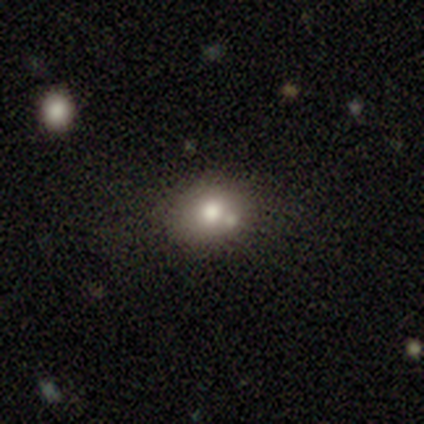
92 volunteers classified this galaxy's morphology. smooth_or_featured: smooth (p=0.71) [alt: star or artifact p=0.15]
how_rounded: round (p=0.57) [alt: in between p=0.43]
merging: none (p=0.59) [alt: minor disturbance p=0.17]